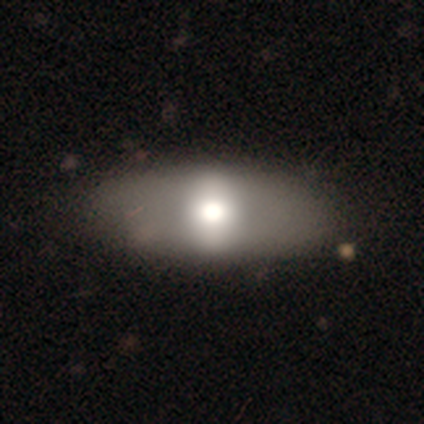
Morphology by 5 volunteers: Q: Smooth or featured?
A: smooth (80%); runner-up: featured or disk (20%)
Q: How rounded?
A: in between (100%)
Q: Merging?
A: none (80%); runner-up: minor disturbance (20%)